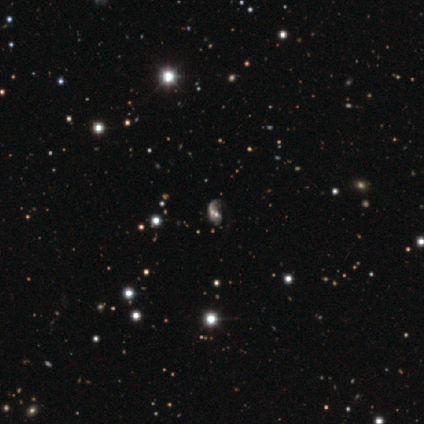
Smooth or featured? featured or disk (50%)
Edge-on disk? no (100%)
Bar? no (68%)
Spiral arms? yes (68%)
Spiral winding? loose (46%)
Spiral arm count? 1 (62%)
Bulge size? moderate (32%)
Merging? major disturbance (31%)